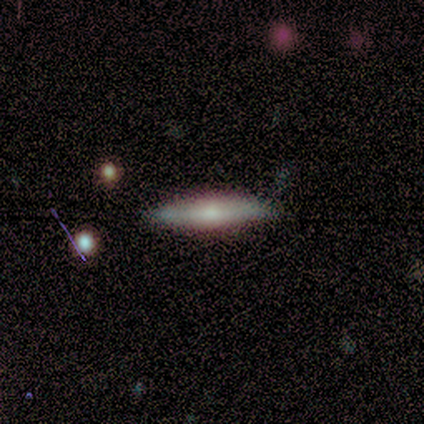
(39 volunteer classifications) Smooth or featured?
  - smooth: 49% *
  - featured or disk: 46%
  - star or artifact: 5%
How rounded?
  - cigar-shaped: 84% *
  - in between: 16%
  - round: 0%
Merging?
  - none: 84% *
  - minor disturbance: 11%
  - major disturbance: 5%
  - merger: 0%